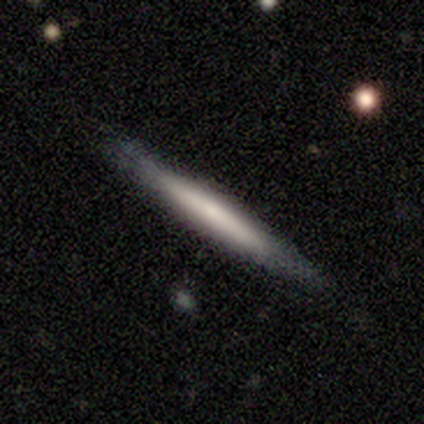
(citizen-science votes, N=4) Smooth or featured? 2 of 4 (50%, tied with featured or disk) said smooth. How rounded? 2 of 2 (100%) said cigar-shaped. Merging? 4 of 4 (100%) said none.